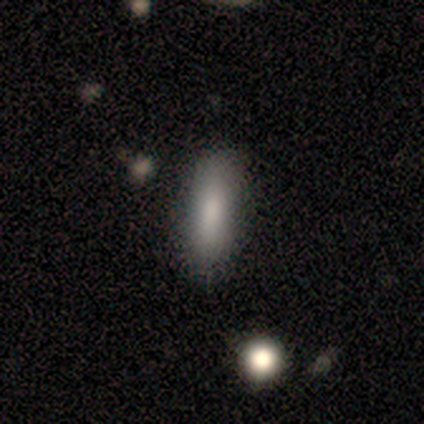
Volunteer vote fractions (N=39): Morphology: type=smooth (82%); roundness=cigar-shaped (72%); merging=none (83%).